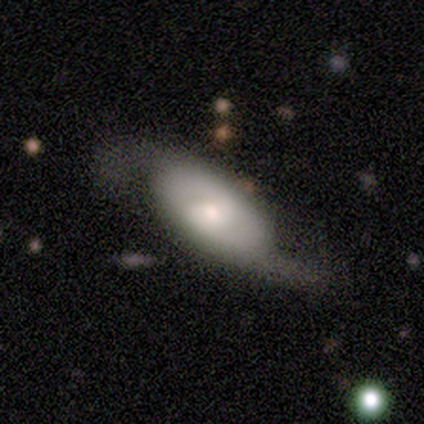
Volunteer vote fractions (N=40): smooth_or_featured: featured or disk (p=0.68) [alt: smooth p=0.28]
disk_edge_on: no (p=0.93) [alt: yes p=0.07]
bar: no (p=0.52) [alt: weak p=0.36]
has_spiral_arms: yes (p=0.84) [alt: no p=0.16]
spiral_winding: loose (p=0.76) [alt: medium p=0.14]
spiral_arm_count: 2 (p=0.95) [alt: can't tell p=0.05]
bulge_size: moderate (p=0.56) [alt: small p=0.36]
merging: none (p=0.47) [alt: minor disturbance p=0.24]